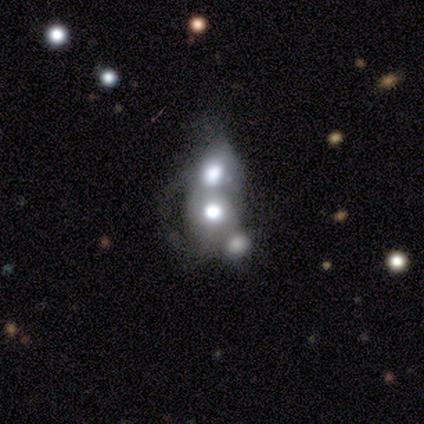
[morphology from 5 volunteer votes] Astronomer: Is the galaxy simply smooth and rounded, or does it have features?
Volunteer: smooth — 40%, tied with featured or disk at 40%.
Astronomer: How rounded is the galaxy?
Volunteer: round — 50%, tied with cigar-shaped at 50%.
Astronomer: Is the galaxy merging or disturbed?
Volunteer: merger — 50%.